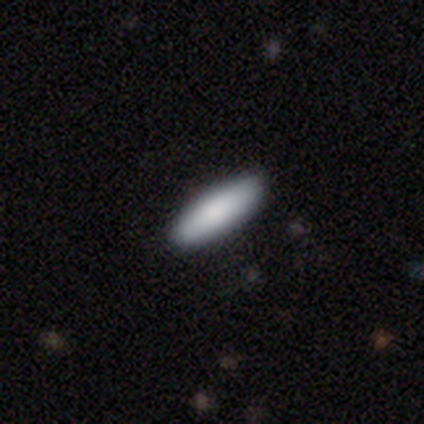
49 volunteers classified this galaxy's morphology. This is clearly a smooth galaxy (98%). How rounded: possibly cigar-shaped (56%). Merging: clearly none (94%).